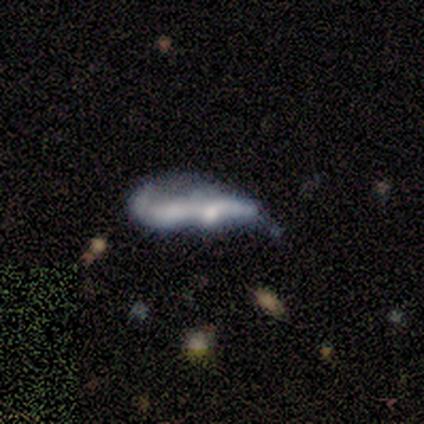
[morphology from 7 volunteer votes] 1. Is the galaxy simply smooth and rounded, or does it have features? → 100% featured or disk, 0% smooth, 0% star or artifact.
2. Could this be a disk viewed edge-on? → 71% no, 29% yes.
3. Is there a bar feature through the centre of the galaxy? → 80% no, 20% strong, 0% weak.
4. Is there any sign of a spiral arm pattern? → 100% no, 0% yes.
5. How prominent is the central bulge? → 40% moderate (tied), 40% small (tied), 20% none, 0% dominant, 0% large.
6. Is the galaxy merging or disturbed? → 29% none (tied), 29% minor disturbance (tied), 29% major disturbance (tied), 14% merger.